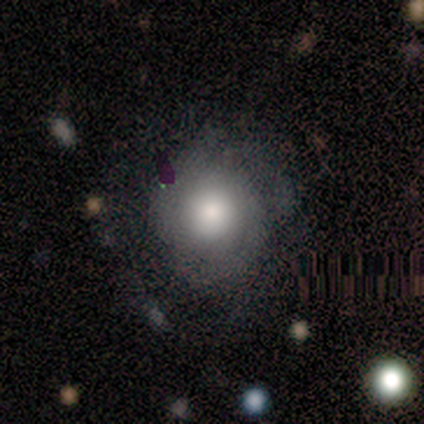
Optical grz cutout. It shows a smooth galaxy with no disk features (60%) that is round (100%). Merging: none (80%).